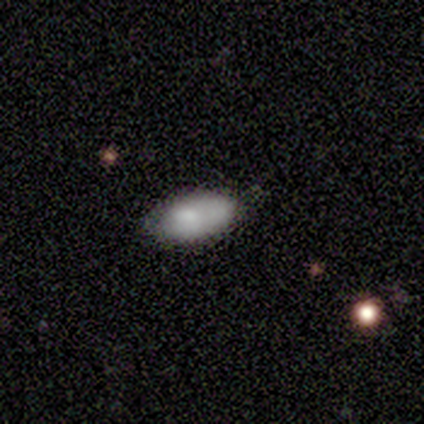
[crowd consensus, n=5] A smooth galaxy with no disk features (80%) that is in between round and cigar-shaped (100%).

Vote fractions:
- Smooth or featured? smooth: 80% / featured or disk: 20% / star or artifact: 0%
- How rounded? in between: 100% / round: 0% / cigar-shaped: 0%
- Merging? none: 80% / minor disturbance: 20% / major disturbance: 0% / merger: 0%